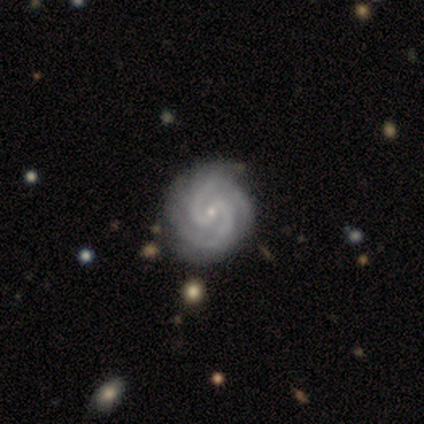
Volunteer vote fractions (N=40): Smooth or featured? featured or disk (92%)
Edge-on disk? no (100%)
Bar? weak (51%)
Spiral arms? yes (100%)
Spiral winding? tight (68%)
Spiral arm count? 2 (84%)
Bulge size? small (89%)
Merging? none (56%)